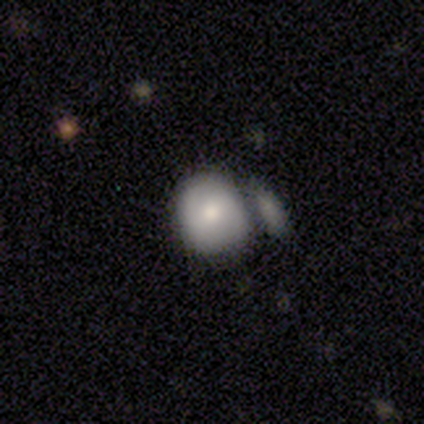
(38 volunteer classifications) This is likely a smooth galaxy (63%). How rounded: likely round (75%). Merging: possibly merger (53%).